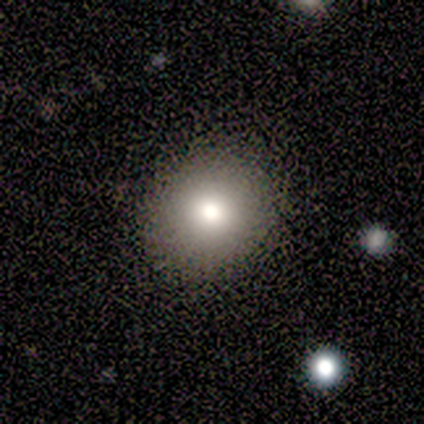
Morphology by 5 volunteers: smooth_or_featured: smooth (p=0.60) [alt: star or artifact p=0.40]
how_rounded: round (p=0.67) [alt: in between p=0.33]
merging: none (p=1.00)